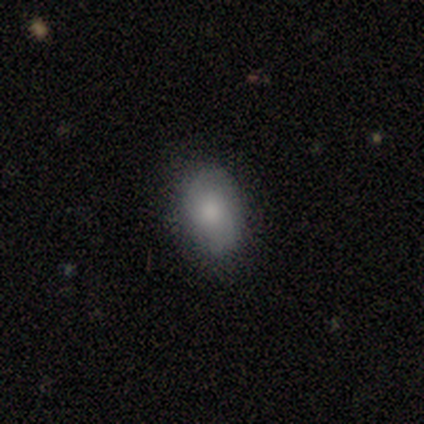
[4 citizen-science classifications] Smooth or featured?
  - smooth: 50% * (tied)
  - featured or disk: 50% * (tied)
  - star or artifact: 0%
How rounded?
  - round: 100% *
  - in between: 0%
  - cigar-shaped: 0%
Merging?
  - none: 100% *
  - minor disturbance: 0%
  - major disturbance: 0%
  - merger: 0%